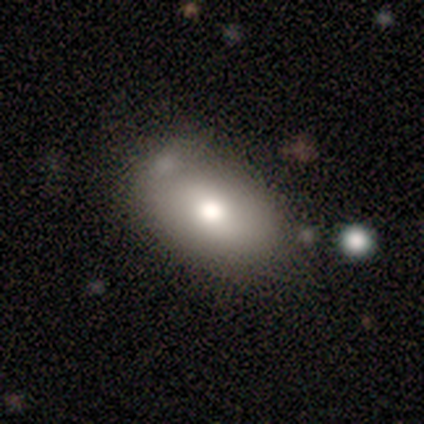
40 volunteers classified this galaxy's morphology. Q: Smooth or featured?
A: smooth (62%); runner-up: featured or disk (25%)
Q: How rounded?
A: in between (84%); runner-up: round (16%)
Q: Merging?
A: none (40%); runner-up: merger (20%)